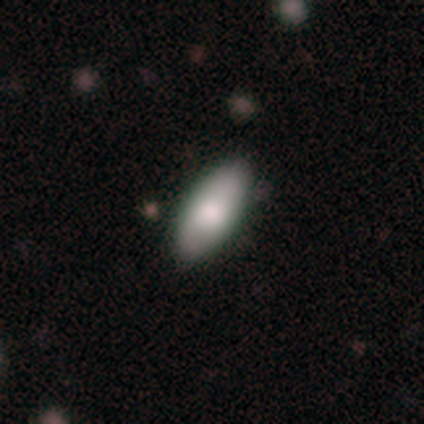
A smooth galaxy with no disk features (80%) that is in between round and cigar-shaped (90%). Merging: none (40%).